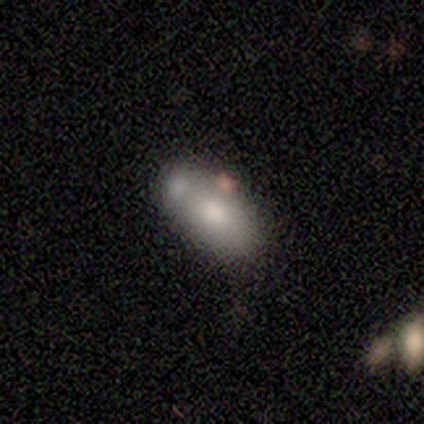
Smooth or featured? smooth (80%)
How rounded? in between (100%)
Merging? none (60%)